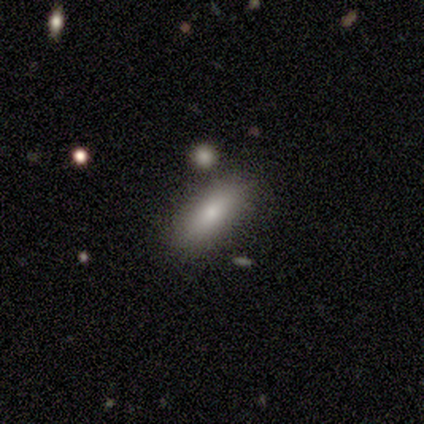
Smooth or featured: smooth — 60% (featured or disk — 20%)
How rounded: in between — 100%
Merging: none — 75% (minor disturbance — 25%)